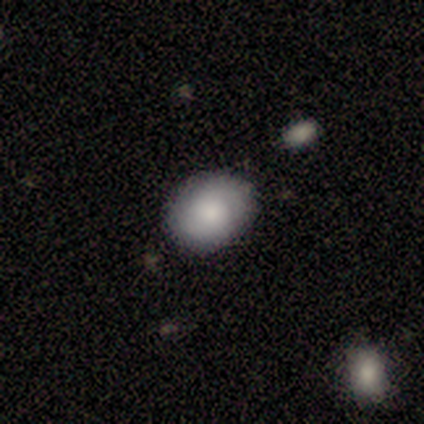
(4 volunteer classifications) This is clearly a smooth galaxy (100%). How rounded: likely round (75%). Merging: clearly none (100%).